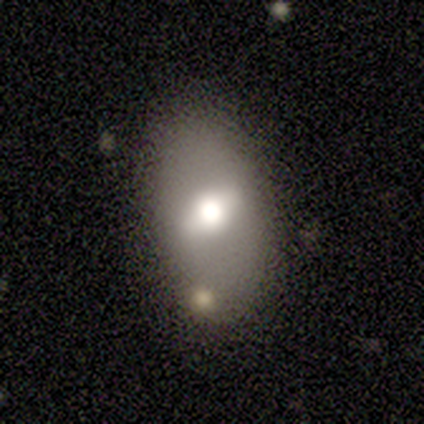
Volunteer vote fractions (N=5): smooth 60%, featured or disk 40%, star or artifact 0%. Down the decision tree: how rounded — in between (100%); merging — none (60%).